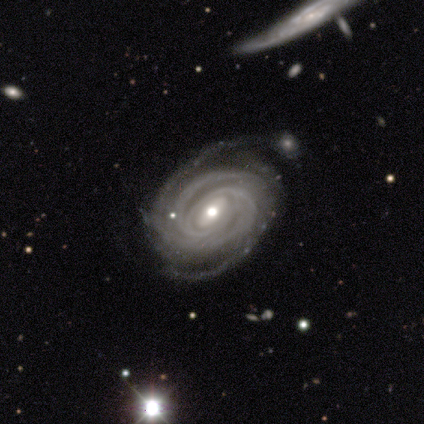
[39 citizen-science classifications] featured or disk 90%, star or artifact 8%, smooth 3%. Down the decision tree: edge-on disk — no (94%); bar — weak (36%, tied with no); spiral arms — yes (97%); spiral arm count — 2 (28%, tied with 4); spiral winding — tight (81%); bulge size — moderate (67%); merging — none (64%).